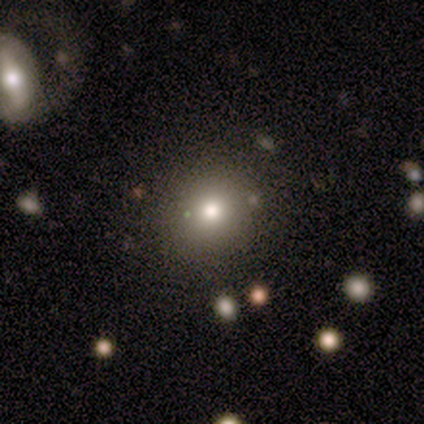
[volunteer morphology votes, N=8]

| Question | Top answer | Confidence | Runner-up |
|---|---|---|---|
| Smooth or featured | smooth | 62% | featured or disk (38%) |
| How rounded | round | 80% | in between (20%) |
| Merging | none | 88% | minor disturbance (12%) |